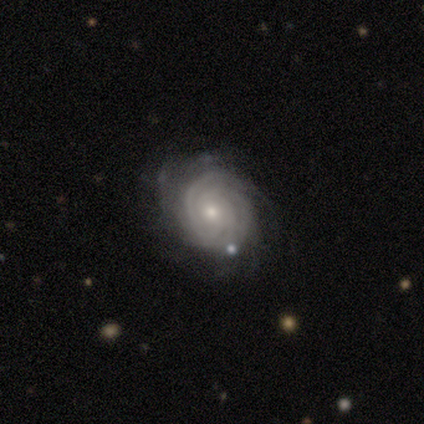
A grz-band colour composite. It shows a featured or disk galaxy (100%) with a weak bar (50%, tied with no), tight (75%) spiral arms (100%) and a moderate central bulge (75%). Merging: minor disturbance (75%).